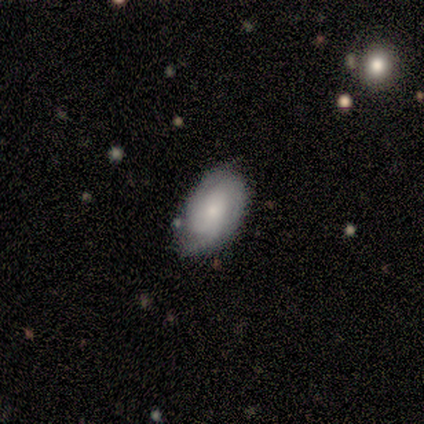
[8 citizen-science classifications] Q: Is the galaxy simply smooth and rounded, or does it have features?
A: featured or disk — 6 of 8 (75%).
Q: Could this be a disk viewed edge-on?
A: no — 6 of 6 (100%).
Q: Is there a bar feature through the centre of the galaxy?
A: no — 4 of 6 (67%).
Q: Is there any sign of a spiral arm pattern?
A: yes — 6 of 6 (100%).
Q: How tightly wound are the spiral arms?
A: tight — 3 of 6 (50%).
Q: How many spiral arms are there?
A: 2 — 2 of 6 (33%, tied with 3).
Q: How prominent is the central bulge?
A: small — 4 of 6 (67%).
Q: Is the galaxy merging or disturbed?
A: none — 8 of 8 (100%).